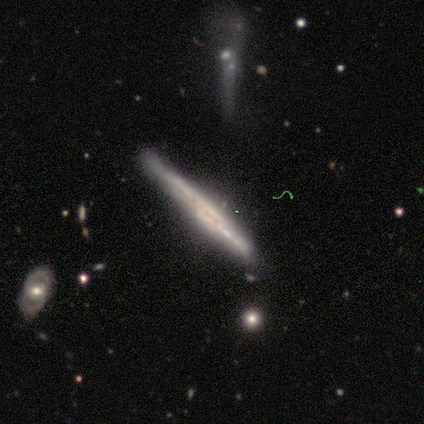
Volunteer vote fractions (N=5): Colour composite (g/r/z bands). It shows a featured or disk galaxy (100%) viewed edge-on (100%) with no central bulge (60%). Merging: none (80%).